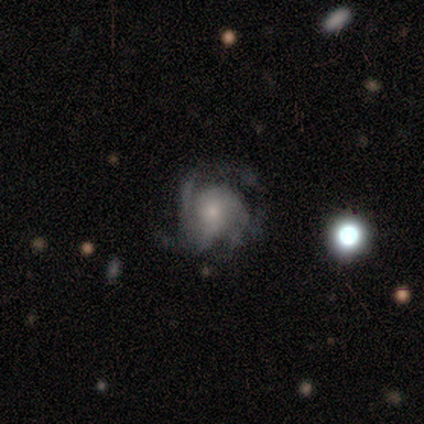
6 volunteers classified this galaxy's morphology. This appears to be a smooth galaxy with no disk features (50%, tied with featured or disk) that is round (100%). Merging: none (50%).